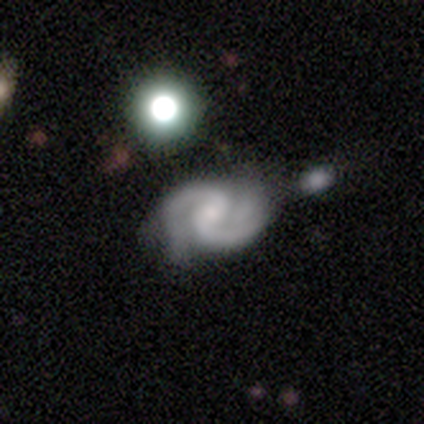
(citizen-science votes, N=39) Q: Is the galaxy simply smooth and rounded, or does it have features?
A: featured or disk — 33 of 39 (85%).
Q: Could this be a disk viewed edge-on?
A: no — 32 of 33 (97%).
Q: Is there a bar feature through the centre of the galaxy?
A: no — 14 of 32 (44%).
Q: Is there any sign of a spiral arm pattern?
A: yes — 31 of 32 (97%).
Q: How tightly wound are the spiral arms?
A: medium — 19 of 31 (61%).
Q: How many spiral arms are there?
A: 2 — 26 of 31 (84%).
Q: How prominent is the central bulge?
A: small — 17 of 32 (53%).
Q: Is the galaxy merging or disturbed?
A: none — 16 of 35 (46%).